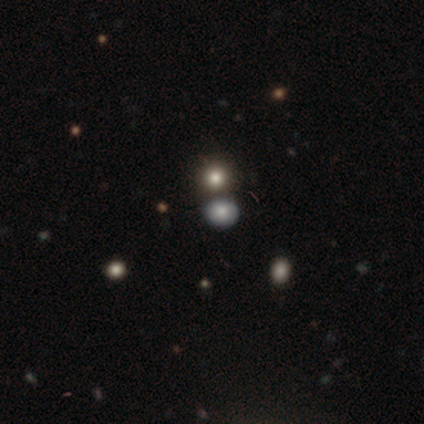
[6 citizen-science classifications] smooth 50% (tied), star or artifact 50% (tied), featured or disk 0%. Down the decision tree: how rounded — in between (67%); merging — none (100%).